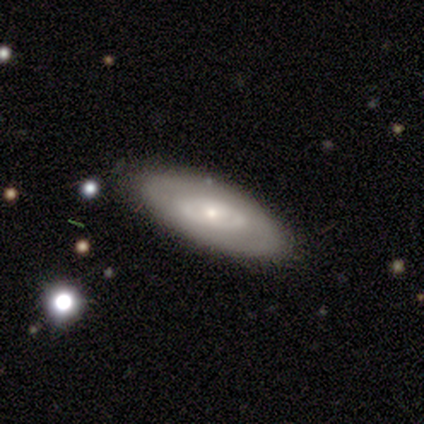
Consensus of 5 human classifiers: smooth_or_featured: featured or disk (p=0.60) [alt: smooth p=0.20]
disk_edge_on: no (p=1.00)
bar: no (p=0.67) [alt: weak p=0.33]
has_spiral_arms: no (p=0.67) [alt: yes p=0.33]
bulge_size: small (p=1.00)
merging: none (p=1.00)